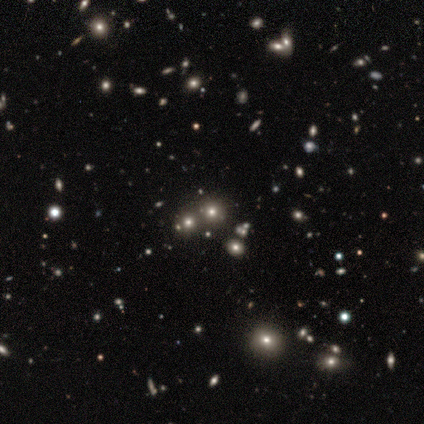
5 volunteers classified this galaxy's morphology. Volunteers were most divided on "smooth or featured" (2-way tie): smooth: 40%, star or artifact: 40%, featured or disk: 20%. More confident: how rounded — round (100%); merging — none (67%).